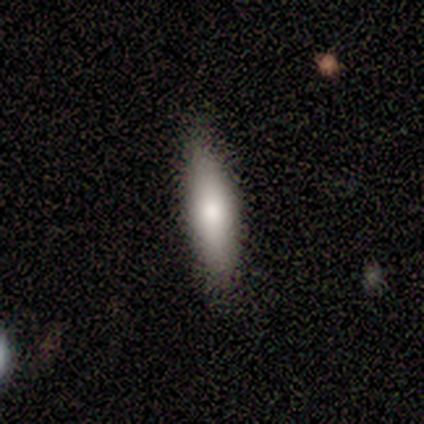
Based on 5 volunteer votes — Morphology: type=smooth (100%); roundness=in between (80%); merging=none (80%).